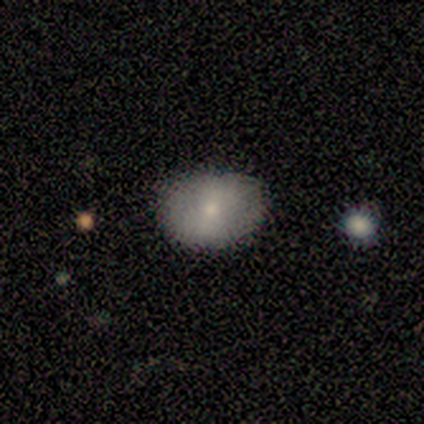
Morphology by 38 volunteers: A smooth galaxy with no disk features (76%) that is in between round and cigar-shaped (66%).

Vote fractions:
- Smooth or featured? smooth: 76% / featured or disk: 24% / star or artifact: 0%
- How rounded? in between: 66% / round: 34% / cigar-shaped: 0%
- Merging? none: 89% / minor disturbance: 11% / major disturbance: 0% / merger: 0%